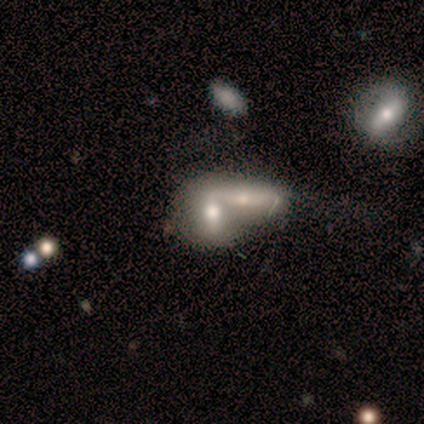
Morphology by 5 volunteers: Overall: featured or disk (80%). Edge-on disk: no (75%). Bar: strong (33%, tied with weak and no). Spiral arms: no (67%; yes 33%). Bulge size: moderate (67%; small 33%). Merging: merger (80%).